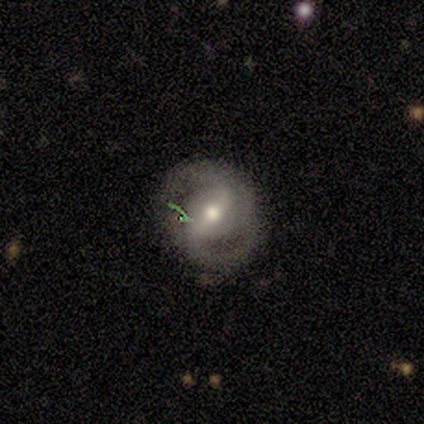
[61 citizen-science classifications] Smooth or featured?
  - featured or disk: 85% *
  - star or artifact: 10%
  - smooth: 5%
Edge-on disk?
  - no: 100% *
  - yes: 0%
Bar?
  - strong: 54% *
  - weak: 37%
  - no: 10%
Spiral arms?
  - yes: 94% *
  - no: 6%
Spiral winding?
  - medium: 43% *
  - tight: 35%
  - loose: 22%
Spiral arm count?
  - 2: 90% *
  - can't tell: 6%
  - 3: 4%
  - 1: 0%
  - 4: 0%
  - more than 4: 0%
Bulge size?
  - moderate: 73% *
  - small: 15%
  - large: 10%
  - none: 2%
  - dominant: 0%
Merging?
  - none: 82% *
  - minor disturbance: 13%
  - major disturbance: 4%
  - merger: 2%